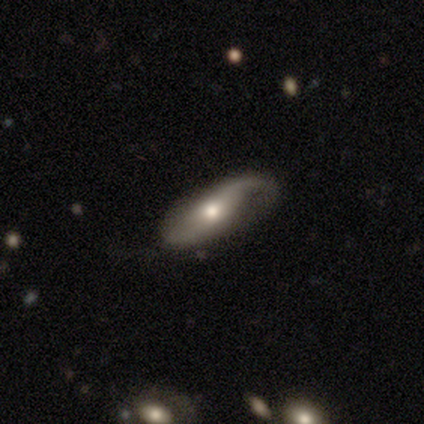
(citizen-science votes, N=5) Overall: featured or disk (100%). Edge-on disk: no (80%). Bar: no (100%). Spiral arms: yes (100%). Spiral arm count: 1 (75%). Spiral winding: loose (75%). Bulge size: moderate (75%). Merging: none (100%).